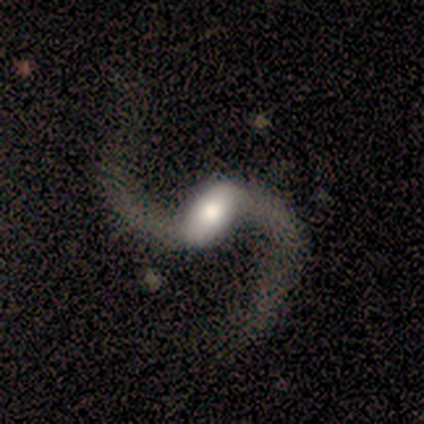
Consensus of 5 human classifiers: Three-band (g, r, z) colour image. It shows a featured or disk galaxy (100%) with a strong bar (60%), 2 (100%) loose (100%) spiral arms (100%) and a large central bulge (40%, tied with moderate). Merging: none (100%).